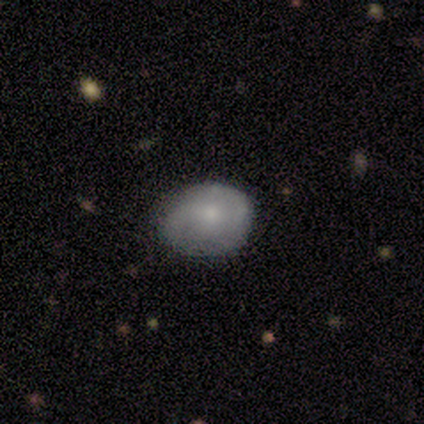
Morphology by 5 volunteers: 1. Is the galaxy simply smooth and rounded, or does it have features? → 60% featured or disk, 40% smooth, 0% star or artifact.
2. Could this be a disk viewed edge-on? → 100% no, 0% yes.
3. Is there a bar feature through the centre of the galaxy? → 67% weak, 33% no, 0% strong.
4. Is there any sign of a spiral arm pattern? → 67% yes, 33% no.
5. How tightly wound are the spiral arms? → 50% tight (tied), 50% medium (tied), 0% loose.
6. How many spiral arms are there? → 100% 2, 0% 1, 0% 3, 0% 4, 0% more than 4, 0% can't tell.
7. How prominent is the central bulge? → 100% small, 0% dominant, 0% large, 0% moderate, 0% none.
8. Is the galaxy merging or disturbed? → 60% minor disturbance, 40% none, 0% major disturbance, 0% merger.